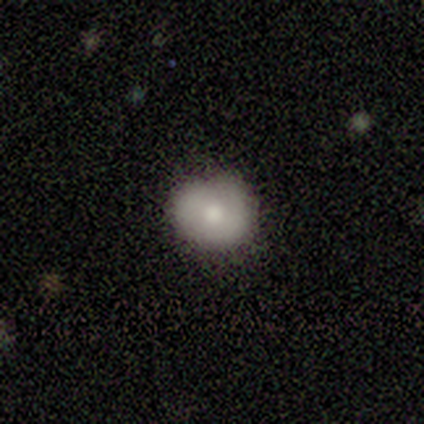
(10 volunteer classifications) Volunteers were most divided on "merging": none: 67%, minor disturbance: 22%, major disturbance: 11%, merger: 0%. More confident: smooth or featured — smooth (80%); how rounded — round (75%).